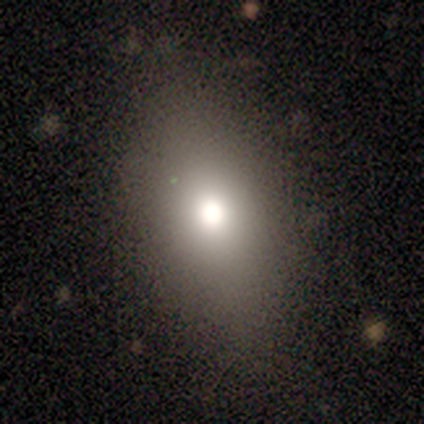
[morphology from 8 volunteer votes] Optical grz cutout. It shows a featured or disk galaxy (62%) with no bar (100%), no spiral arms (100%) and a moderate central bulge (100%). Merging: none (75%).